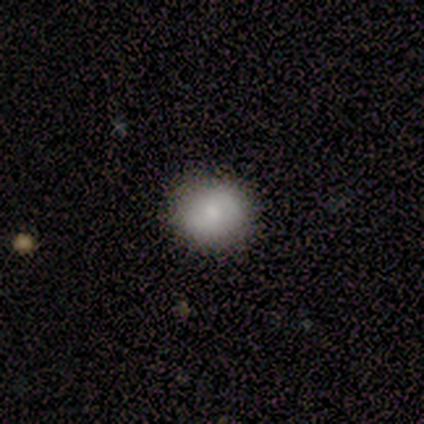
Volunteers were most divided on "how rounded": round: 60%, in between: 40%, cigar-shaped: 0%. More confident: smooth or featured — smooth (83%); merging — none (83%).